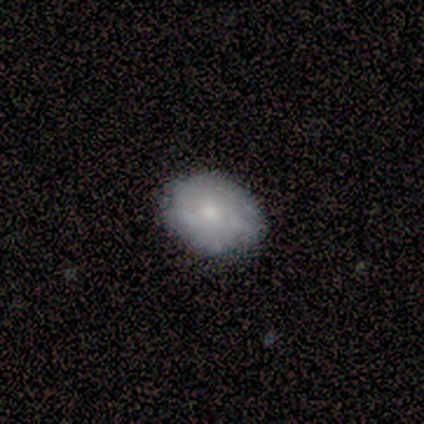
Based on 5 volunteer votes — Smooth or featured: smooth — 100%
How rounded: in between — 60% (round — 40%)
Merging: none — 100%